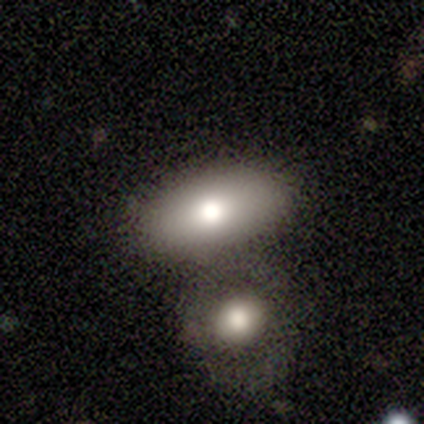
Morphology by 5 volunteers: Q: Smooth or featured?
A: smooth (80%); runner-up: featured or disk (20%)
Q: How rounded?
A: in between (100%)
Q: Merging?
A: none (60%); runner-up: merger (40%)